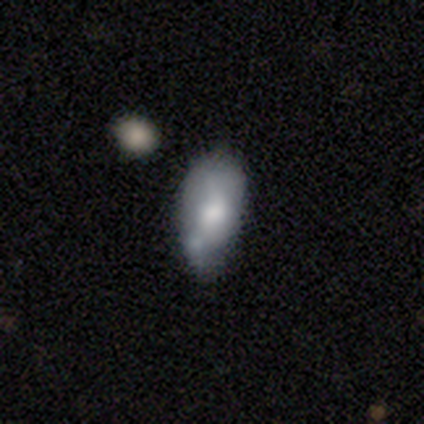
Smooth or featured? 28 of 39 (72%) said smooth. How rounded? 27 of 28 (96%) said in between. Merging? 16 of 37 (43%) said none.